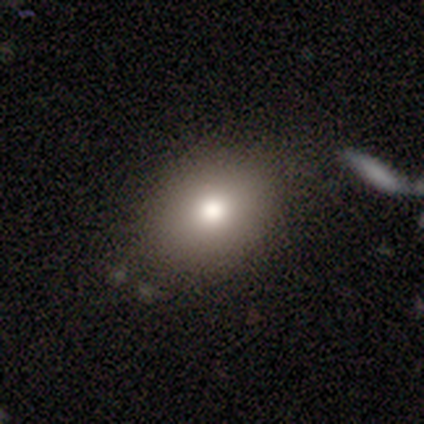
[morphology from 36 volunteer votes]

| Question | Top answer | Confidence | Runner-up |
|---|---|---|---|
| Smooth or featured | smooth | 78% | featured or disk (11%) |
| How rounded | in between | 54% | round (46%) |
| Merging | none | 84% | minor disturbance (9%) |